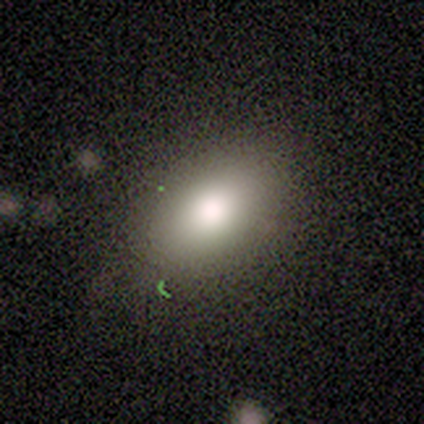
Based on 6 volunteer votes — This is likely a smooth galaxy (67%). How rounded: clearly in between (100%). Merging: clearly none (83%).